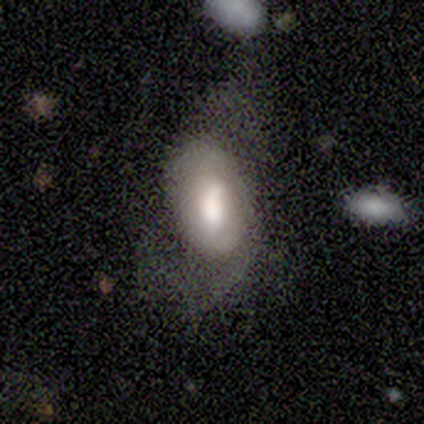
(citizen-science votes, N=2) A smooth galaxy with no disk features (100%) that is in between round and cigar-shaped (100%).

Vote fractions:
- Smooth or featured? smooth: 100% / featured or disk: 0% / star or artifact: 0%
- How rounded? in between: 100% / round: 0% / cigar-shaped: 0%
- Merging? none: 50% (tied) / major disturbance: 50% (tied) / minor disturbance: 0% / merger: 0%